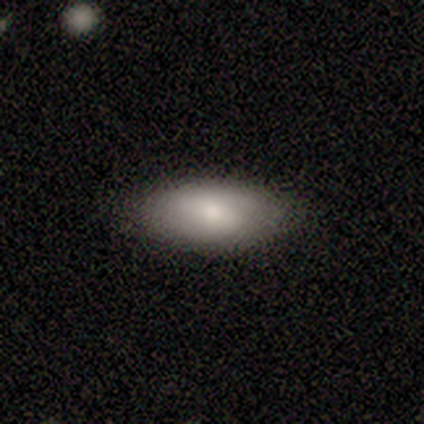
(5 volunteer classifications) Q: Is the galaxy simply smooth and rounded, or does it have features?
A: smooth — 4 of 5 (80%).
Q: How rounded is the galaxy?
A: in between — 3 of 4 (75%).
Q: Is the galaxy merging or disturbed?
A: none — 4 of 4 (100%).